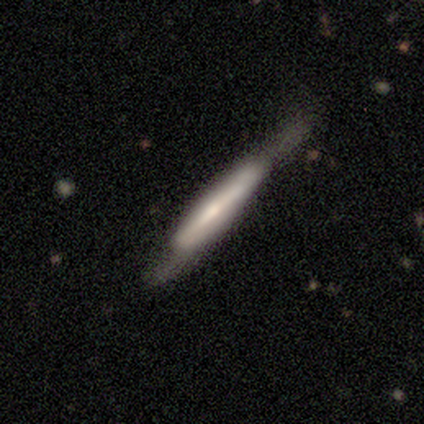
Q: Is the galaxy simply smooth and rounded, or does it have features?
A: smooth — 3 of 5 (60%).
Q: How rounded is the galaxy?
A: cigar-shaped — 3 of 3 (100%).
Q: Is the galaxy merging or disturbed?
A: none — 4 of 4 (100%).